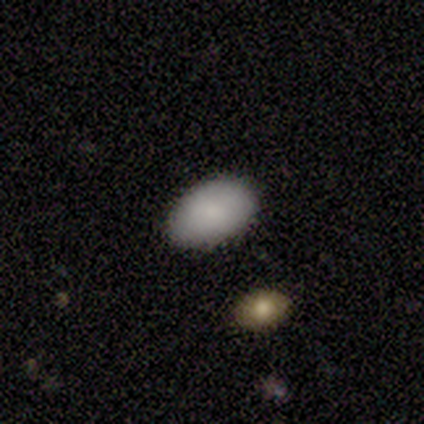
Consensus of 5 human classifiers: Smooth or featured?
  - smooth: 80% *
  - star or artifact: 20%
  - featured or disk: 0%
How rounded?
  - in between: 100% *
  - round: 0%
  - cigar-shaped: 0%
Merging?
  - none: 100% *
  - minor disturbance: 0%
  - major disturbance: 0%
  - merger: 0%